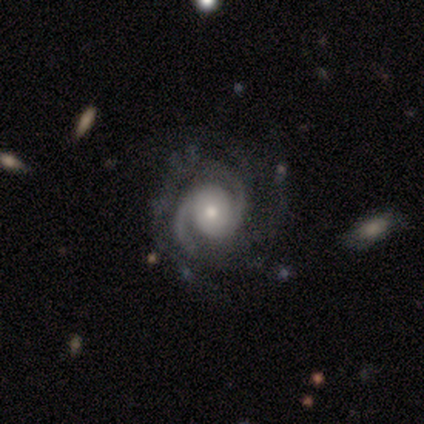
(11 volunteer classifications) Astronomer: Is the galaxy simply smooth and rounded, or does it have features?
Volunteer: featured or disk — 91%.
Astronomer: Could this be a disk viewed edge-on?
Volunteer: no — 100%.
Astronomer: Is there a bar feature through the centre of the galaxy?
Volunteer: no — 90%.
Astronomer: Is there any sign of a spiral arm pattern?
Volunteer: yes — 100%.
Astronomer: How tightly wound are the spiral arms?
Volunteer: tight — 70%.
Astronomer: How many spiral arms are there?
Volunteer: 2 — 70%.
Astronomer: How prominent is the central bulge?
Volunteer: moderate — 50% (runner-up: small, 30%).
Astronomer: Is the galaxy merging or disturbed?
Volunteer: minor disturbance — 55% (runner-up: major disturbance, 36%).